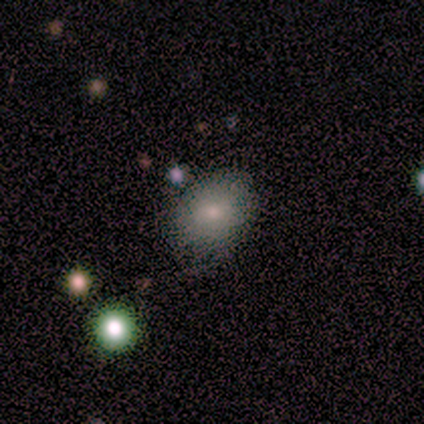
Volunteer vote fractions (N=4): smooth 75%, featured or disk 25%, star or artifact 0%. Down the decision tree: how rounded — in between (100%); merging — none (50%, tied with minor disturbance).